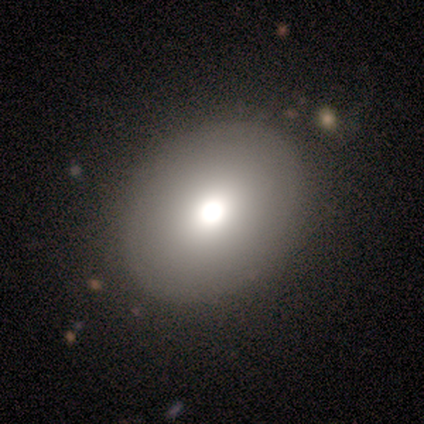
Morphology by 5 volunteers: This is likely a smooth galaxy (60%). How rounded: likely in between (67%). Merging: likely none (75%).